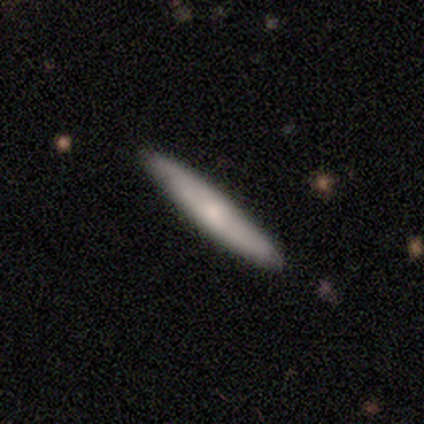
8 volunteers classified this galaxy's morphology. A smooth galaxy with no disk features (62%) that is cigar-shaped (100%). Merging: none (88%).